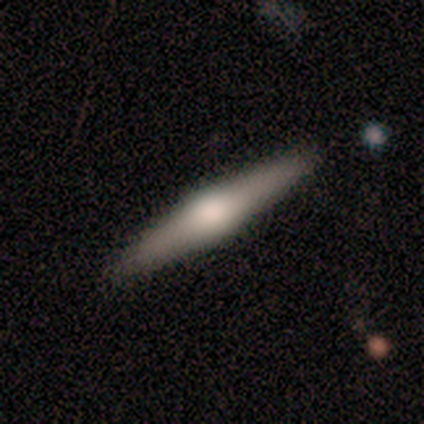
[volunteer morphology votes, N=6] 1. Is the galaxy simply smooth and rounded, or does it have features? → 83% featured or disk, 17% smooth, 0% star or artifact.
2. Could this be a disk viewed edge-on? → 100% yes, 0% no.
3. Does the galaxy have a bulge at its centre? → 100% rounded, 0% boxy, 0% none.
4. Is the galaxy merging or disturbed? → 100% none, 0% minor disturbance, 0% major disturbance, 0% merger.